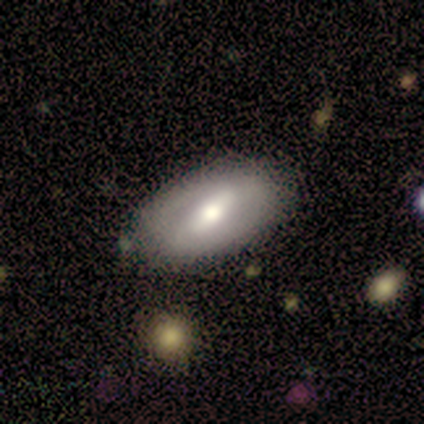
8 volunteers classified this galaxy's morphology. smooth_or_featured: smooth (p=0.50) [tied with: featured or disk p=0.50]
how_rounded: in between (p=1.00)
merging: none (p=0.75) [alt: minor disturbance p=0.25]